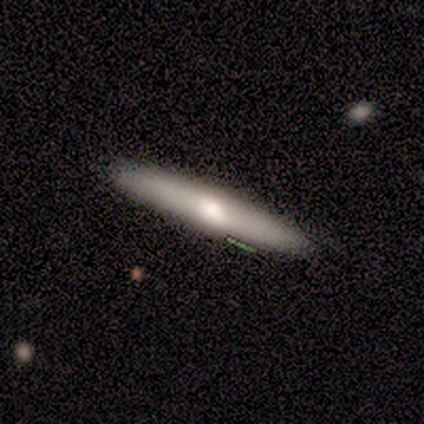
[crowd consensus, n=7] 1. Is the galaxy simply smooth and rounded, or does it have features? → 57% featured or disk, 43% smooth, 0% star or artifact.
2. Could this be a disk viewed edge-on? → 100% yes, 0% no.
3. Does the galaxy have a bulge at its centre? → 100% rounded, 0% boxy, 0% none.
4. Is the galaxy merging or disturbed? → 100% none, 0% minor disturbance, 0% major disturbance, 0% merger.